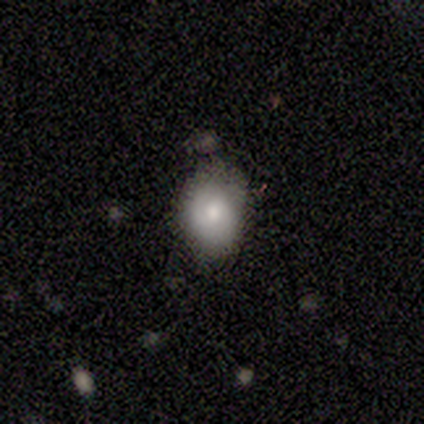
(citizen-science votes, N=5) This is clearly a smooth galaxy (80%). How rounded: clearly in between (100%). Merging: clearly none (100%).